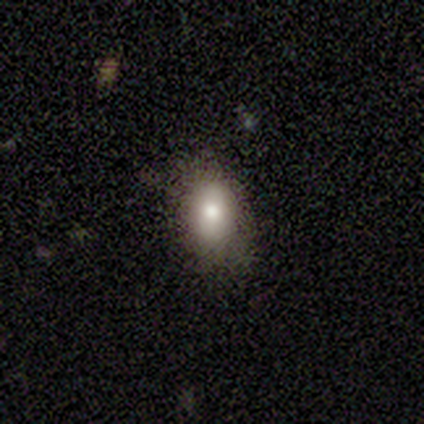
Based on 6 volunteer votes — smooth-or-featured: smooth: 83% | featured or disk: 17% | star or artifact: 0%
  how-rounded: in between: 80% | round: 20% | cigar-shaped: 0%
  merging: none: 50% | minor disturbance: 33% | major disturbance: 17% | merger: 0%